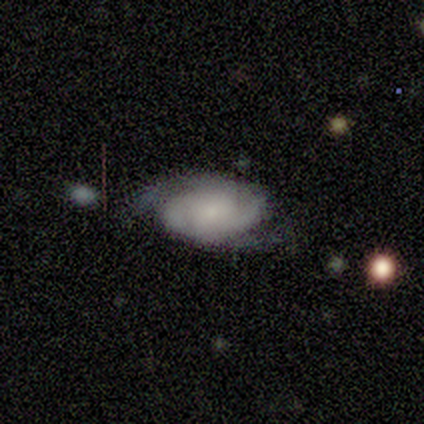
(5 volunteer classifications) smooth_or_featured: featured or disk (p=1.00)
disk_edge_on: no (p=1.00)
bar: no (p=0.60) [alt: strong p=0.20]
has_spiral_arms: yes (p=1.00)
spiral_winding: tight (p=0.60) [alt: medium p=0.20]
spiral_arm_count: 2 (p=0.80) [alt: 3 p=0.20]
bulge_size: small (p=0.80) [alt: moderate p=0.20]
merging: minor disturbance (p=0.60) [alt: none p=0.40]